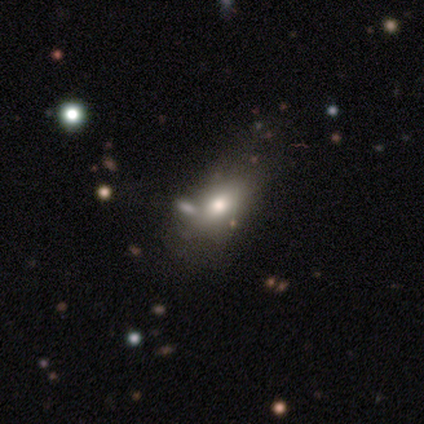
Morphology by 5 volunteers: type=smooth (60%); roundness=in between (100%); merging=none (75%).